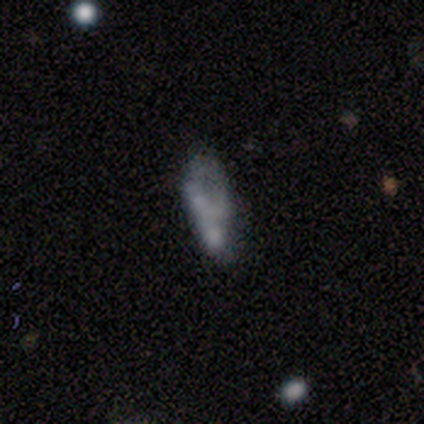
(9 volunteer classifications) Overall: featured or disk (56%; smooth 33%). Edge-on disk: no (100%). Bar: no (80%). Spiral arms: yes (60%; no 40%). Spiral arm count: can't tell (67%; 1 33%). Spiral winding: loose (100%). Bulge size: none (80%). Merging: minor disturbance (38%; none 25%).